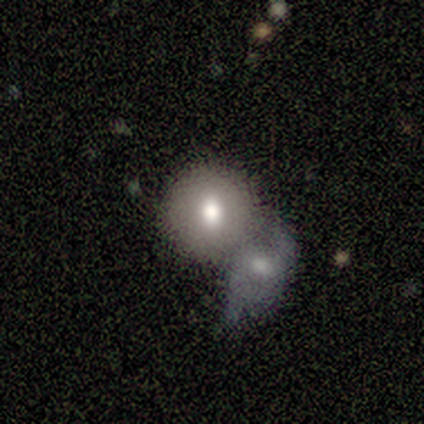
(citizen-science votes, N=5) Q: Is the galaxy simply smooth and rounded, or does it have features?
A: smooth — 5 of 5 (100%).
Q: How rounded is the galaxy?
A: round — 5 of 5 (100%).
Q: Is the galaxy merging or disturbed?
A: merger — 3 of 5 (60%).